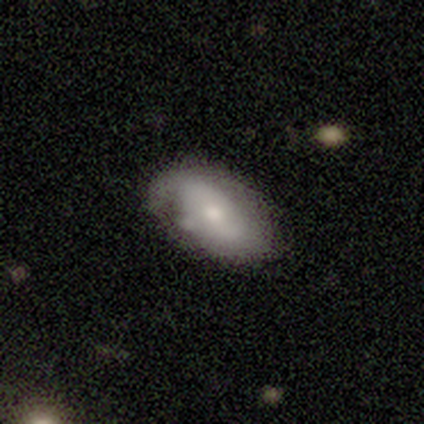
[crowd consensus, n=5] A featured or disk galaxy (80%) with no bar (75%), 2 (100%) medium (50%, tied with loose) spiral arms (50%, tied with no) and a small central bulge (50%).

Vote fractions:
- Smooth or featured? featured or disk: 80% / smooth: 20% / star or artifact: 0%
- Edge-on disk? no: 100% / yes: 0%
- Bar? no: 75% / weak: 25% / strong: 0%
- Spiral arms? yes: 50% (tied) / no: 50% (tied)
- Spiral winding? medium: 50% (tied) / loose: 50% (tied) / tight: 0%
- Spiral arm count? 2: 100% / 1: 0% / 3: 0% / 4: 0% / more than 4: 0% / can't tell: 0%
- Bulge size? small: 50% / large: 25% / moderate: 25% / dominant: 0% / none: 0%
- Merging? none: 40% (tied) / minor disturbance: 40% (tied) / major disturbance: 20% / merger: 0%